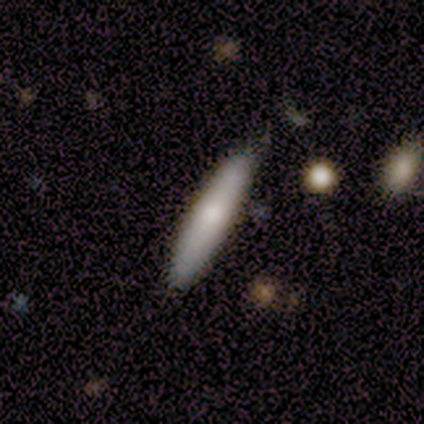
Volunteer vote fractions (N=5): Overall: smooth (100%). How rounded: cigar-shaped (100%). Merging: none (100%).